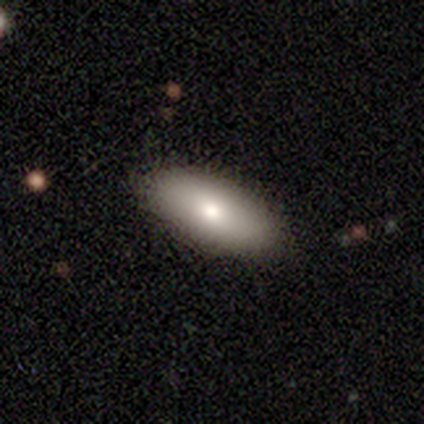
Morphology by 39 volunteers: This appears to be a smooth galaxy with no disk features (79%) that is in between round and cigar-shaped (94%). Merging: none (87%).